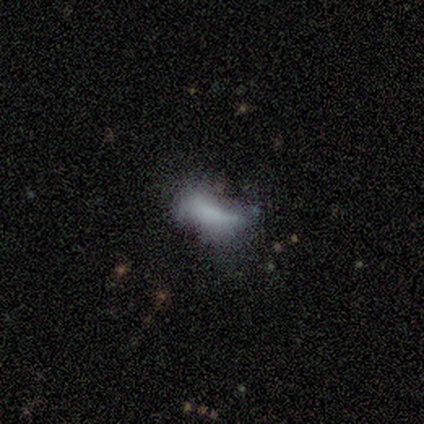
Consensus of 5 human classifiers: Morphology: type=smooth (80%); roundness=in between (100%); merging=none (60%).